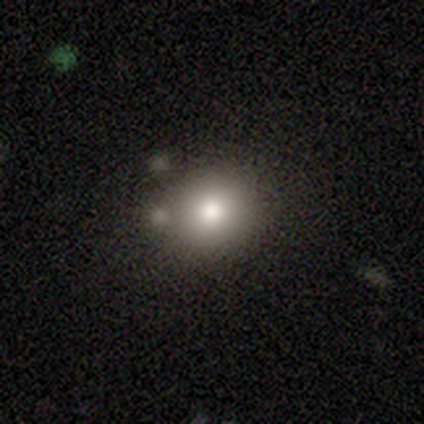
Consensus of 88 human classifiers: Q: Smooth or featured?
A: smooth (76%); runner-up: featured or disk (12%)
Q: How rounded?
A: round (85%); runner-up: in between (13%)
Q: Merging?
A: none (69%); runner-up: minor disturbance (15%)